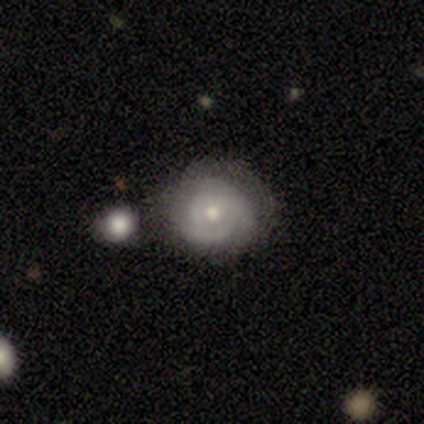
This appears to be a featured or disk galaxy (100%) with no bar (100%), 3 (60%) tight (80%) spiral arms (100%) and a moderate central bulge (60%). Merging: none (60%).